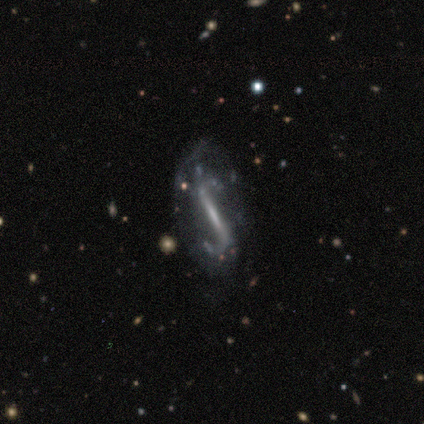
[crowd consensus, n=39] smooth-or-featured: featured or disk: 85% | star or artifact: 10% | smooth: 5%
  disk-edge-on: no: 82% | yes: 18%
    bar: strong: 93% | weak: 7% | no: 0%
    has-spiral-arms: yes: 78% | no: 22%
      spiral-winding: loose: 67% | medium: 19% | tight: 14%
      spiral-arm-count: 2: 95% | 1: 5% | 3: 0% | 4: 0% | more than 4: 0% | can't tell: 0%
    bulge-size: small: 48% | none: 37% | moderate: 7% | dominant: 4% | large: 4%
  merging: none: 43% | minor disturbance: 29% | major disturbance: 23% | merger: 6%